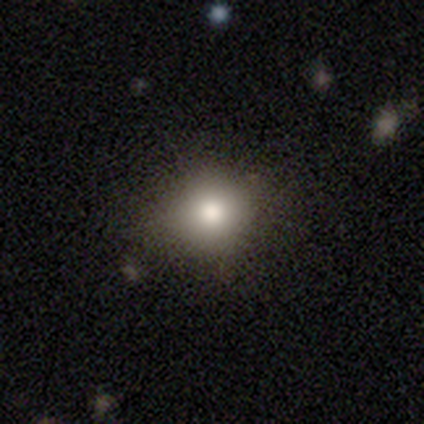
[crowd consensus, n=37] smooth-or-featured: smooth: 81% | star or artifact: 11% | featured or disk: 8%
  how-rounded: round: 87% | in between: 13% | cigar-shaped: 0%
  merging: none: 76% | minor disturbance: 12% | major disturbance: 12% | merger: 0%